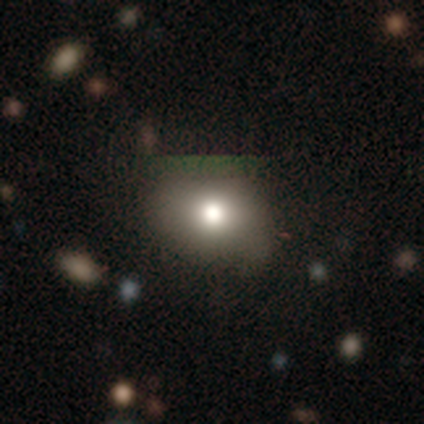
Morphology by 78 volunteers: Volunteers were most divided on "how rounded" (2-way tie): round: 50%, in between: 50%, cigar-shaped: 0%. Remaining: smooth or featured — smooth (67%); merging — none (38%).